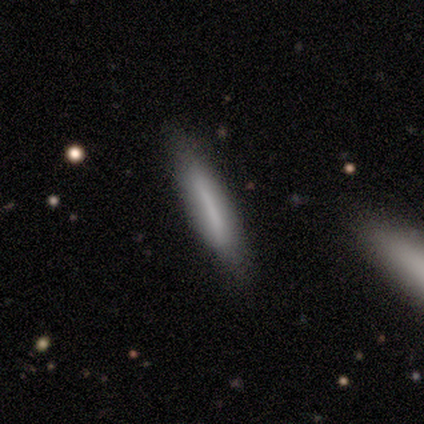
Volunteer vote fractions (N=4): A smooth galaxy with no disk features (75%) that is cigar-shaped (100%). Merging: none (75%).